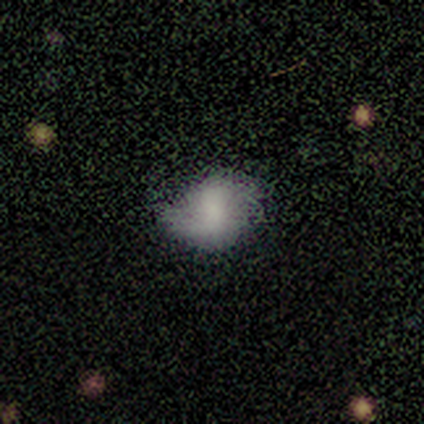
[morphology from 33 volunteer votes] Smooth or featured? 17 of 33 (52%) said featured or disk. Edge-on disk? 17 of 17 (100%) said no. Bar? 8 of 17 (47%) said no. Spiral arms? 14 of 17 (82%) said yes. Spiral winding? 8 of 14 (57%) said loose. Spiral arm count? 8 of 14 (57%) said 2. Bulge size? 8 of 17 (47%) said none. Merging? 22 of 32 (69%) said none.